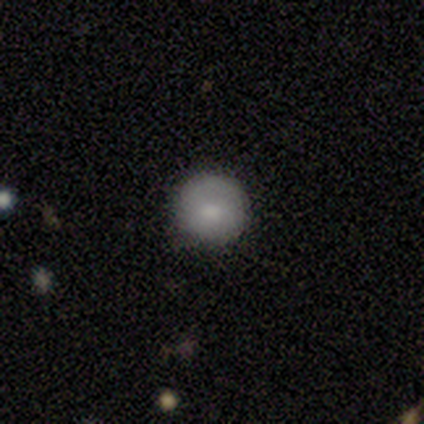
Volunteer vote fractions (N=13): Smooth or featured: smooth — 85% (featured or disk — 15%)
How rounded: round — 91% (cigar-shaped — 9%)
Merging: none — 100%